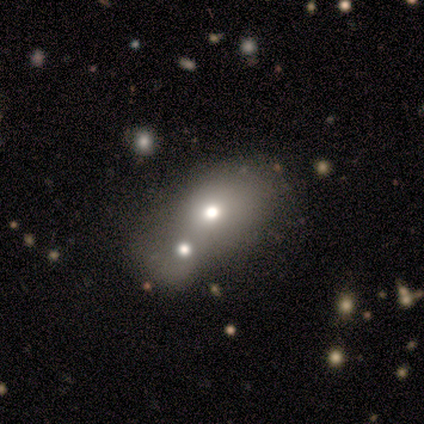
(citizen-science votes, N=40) A smooth galaxy with no disk features (72%) that is in between round and cigar-shaped (55%).

Vote fractions:
- Smooth or featured? smooth: 72% / featured or disk: 20% / star or artifact: 8%
- How rounded? in between: 55% / round: 45% / cigar-shaped: 0%
- Merging? merger: 68% / none: 0% / minor disturbance: 0% / major disturbance: 0%